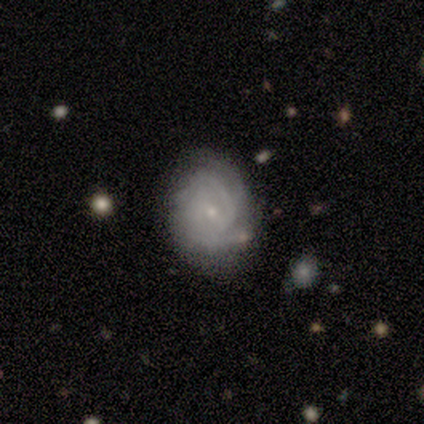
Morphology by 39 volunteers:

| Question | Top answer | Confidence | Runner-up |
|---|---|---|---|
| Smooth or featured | featured or disk | 82% | smooth (15%) |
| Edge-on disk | no | 100% | — |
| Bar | no | 56% | weak (41%) |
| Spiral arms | yes | 91% | no (9%) |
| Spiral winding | tight | 72% | medium (28%) |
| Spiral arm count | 2 | 31% | tied: 3 (31%) |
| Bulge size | small | 84% | moderate (6%) |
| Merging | none | 50% | minor disturbance (34%) |